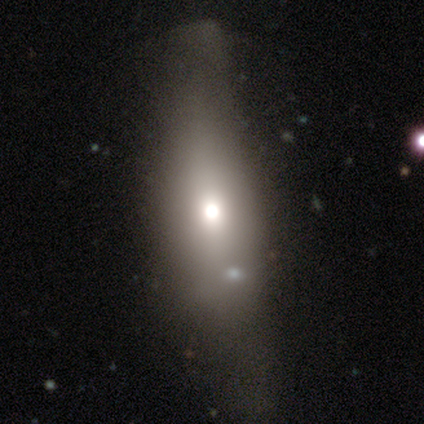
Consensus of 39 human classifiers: Overall: smooth (62%; featured or disk 28%). How rounded: in between (75%). Merging: none (37%; major disturbance 23%).